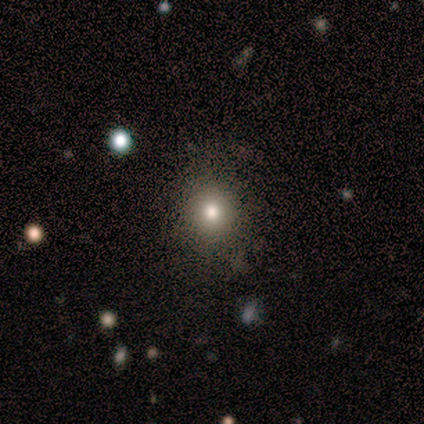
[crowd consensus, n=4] Q: Smooth or featured?
A: smooth (100%)
Q: How rounded?
A: round (75%); runner-up: in between (25%)
Q: Merging?
A: none (100%)